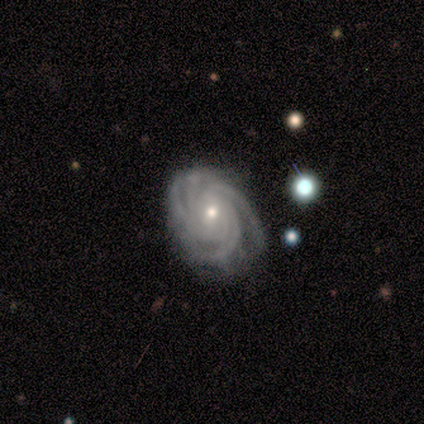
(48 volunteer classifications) smooth_or_featured: featured or disk (p=0.90) [alt: smooth p=0.06]
disk_edge_on: no (p=1.00)
bar: no (p=0.58) [alt: weak p=0.35]
has_spiral_arms: yes (p=1.00)
spiral_winding: tight (p=0.70) [alt: medium p=0.23]
spiral_arm_count: 4 (p=0.63) [alt: 3 p=0.16]
bulge_size: small (p=0.60) [alt: moderate p=0.40]
merging: none (p=0.67) [alt: minor disturbance p=0.22]